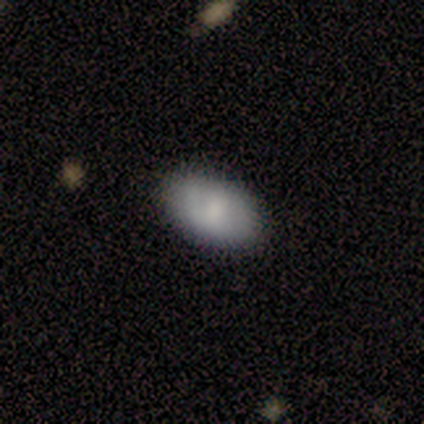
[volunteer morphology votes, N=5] Volunteers were most divided on "smooth or featured": smooth: 60%, featured or disk: 40%, star or artifact: 0%. More confident: how rounded — in between (100%); merging — none (100%).